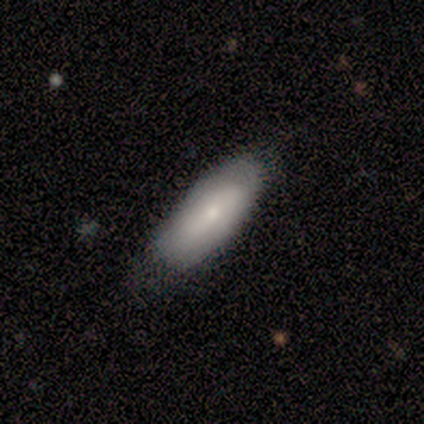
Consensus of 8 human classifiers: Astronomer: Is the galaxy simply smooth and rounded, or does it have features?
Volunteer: smooth — 50%, tied with featured or disk at 50%.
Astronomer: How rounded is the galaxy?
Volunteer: in between — 100%.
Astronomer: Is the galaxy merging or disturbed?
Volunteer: none — 62%.